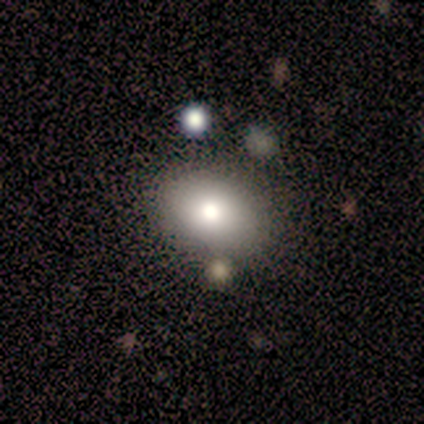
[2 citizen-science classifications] Morphology: type=smooth (50%, tied with featured or disk); roundness=in between (100%); merging=none (100%).